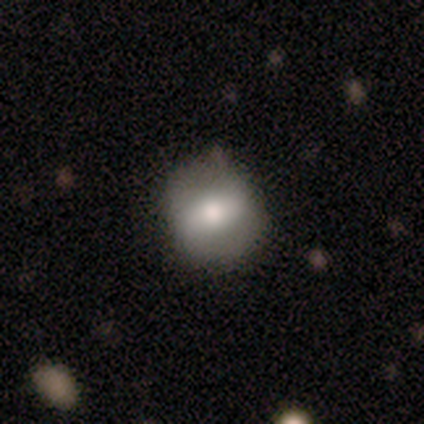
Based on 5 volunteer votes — Smooth or featured? 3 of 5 (60%) said smooth. How rounded? 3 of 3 (100%) said in between. Merging? 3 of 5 (60%) said none.